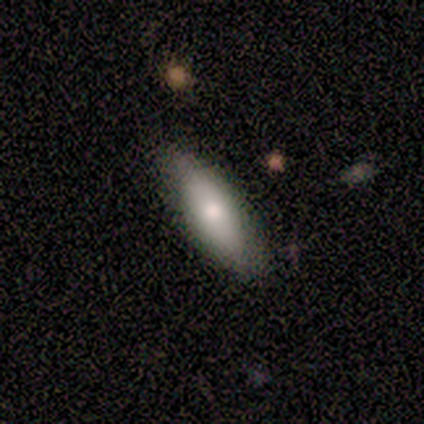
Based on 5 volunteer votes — Smooth or featured: smooth — 80% (star or artifact — 20%)
How rounded: in between — 50% (tied with cigar-shaped — 50%)
Merging: none — 100%